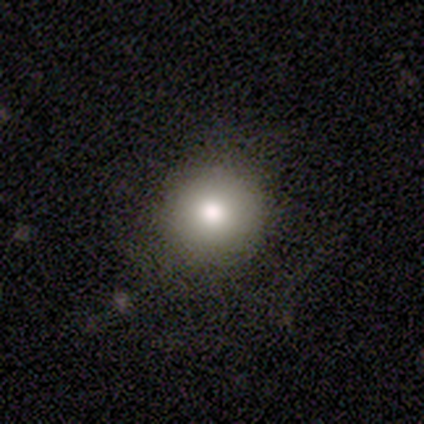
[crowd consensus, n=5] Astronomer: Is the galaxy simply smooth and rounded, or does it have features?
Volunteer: smooth — 80%.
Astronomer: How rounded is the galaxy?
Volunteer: round — 100%.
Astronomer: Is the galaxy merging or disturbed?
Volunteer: none — 80%.